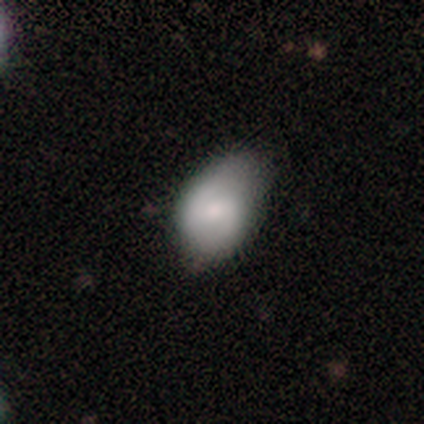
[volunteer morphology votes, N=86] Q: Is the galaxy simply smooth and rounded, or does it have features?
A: smooth — 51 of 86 (59%).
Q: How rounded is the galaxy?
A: in between — 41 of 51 (80%).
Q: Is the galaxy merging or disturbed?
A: none — 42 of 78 (54%).